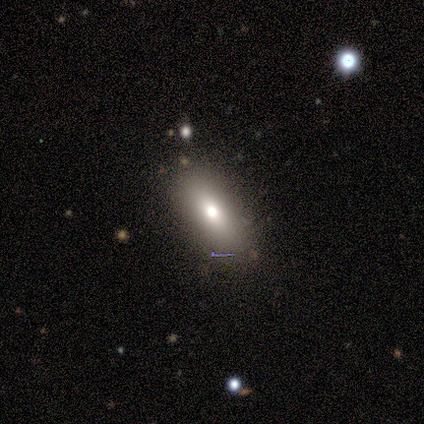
Overall: smooth (75%). How rounded: in between (100%). Merging: none (88%).